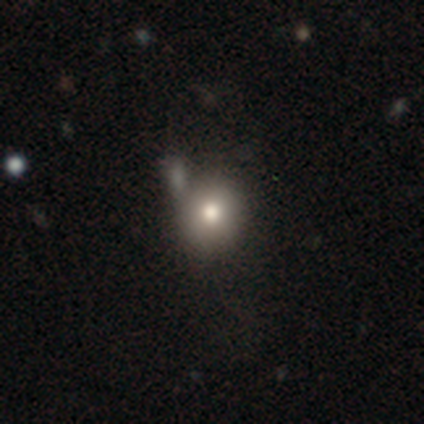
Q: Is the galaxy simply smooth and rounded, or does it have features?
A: smooth — 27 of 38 (71%).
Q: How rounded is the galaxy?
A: round — 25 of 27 (93%).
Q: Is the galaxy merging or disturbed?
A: none — 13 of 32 (41%).